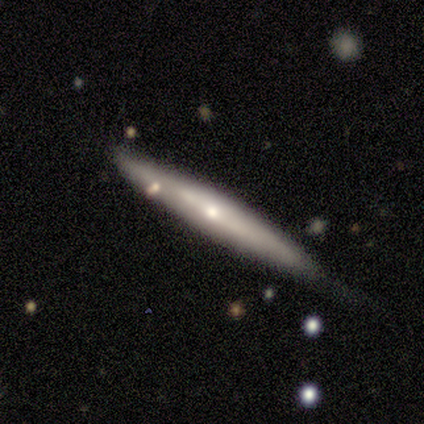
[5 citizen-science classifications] featured or disk 80%, smooth 20%, star or artifact 0%. Down the decision tree: edge-on disk — yes (100%); edge-on bulge — rounded (100%); merging — none (60%).